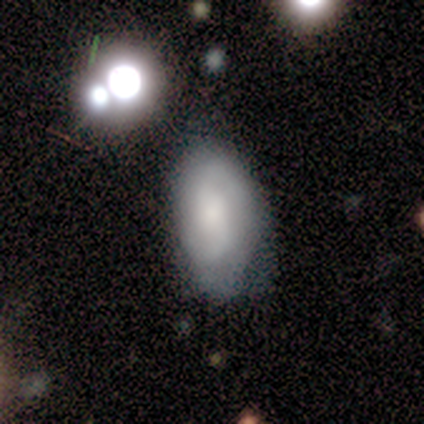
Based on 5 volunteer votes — smooth_or_featured: smooth (p=0.60) [alt: featured or disk p=0.40]
how_rounded: in between (p=1.00)
merging: none (p=0.40) [tied with: minor disturbance p=0.40]